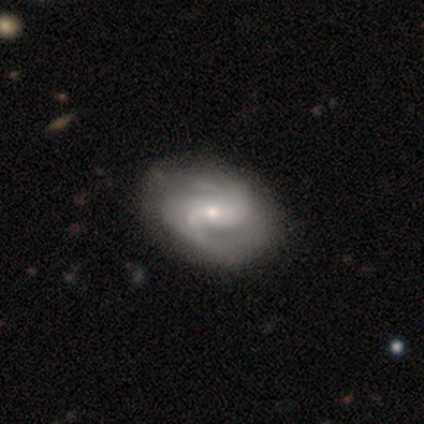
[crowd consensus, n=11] A featured or disk galaxy (100%) with a weak bar (45%), 2 (73%) medium (55%) spiral arms (100%) and a small central bulge (55%).

Vote fractions:
- Smooth or featured? featured or disk: 100% / smooth: 0% / star or artifact: 0%
- Edge-on disk? no: 100% / yes: 0%
- Bar? weak: 45% / strong: 27% / no: 27%
- Spiral arms? yes: 100% / no: 0%
- Spiral winding? medium: 55% / tight: 27% / loose: 18%
- Spiral arm count? 2: 73% / can't tell: 18% / 3: 9% / 1: 0% / 4: 0% / more than 4: 0%
- Bulge size? small: 55% / moderate: 36% / large: 9% / dominant: 0% / none: 0%
- Merging? none: 73% / minor disturbance: 27% / major disturbance: 0% / merger: 0%